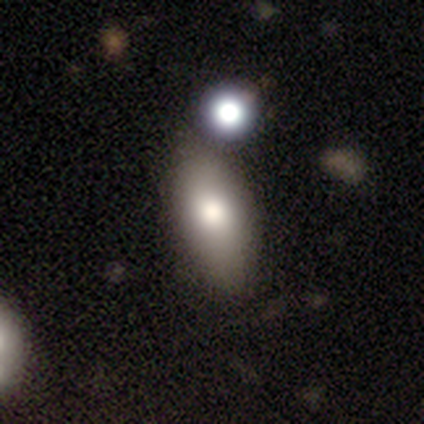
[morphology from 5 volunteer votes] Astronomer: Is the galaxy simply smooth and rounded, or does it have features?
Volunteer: smooth — 100%.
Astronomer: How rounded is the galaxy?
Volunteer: in between — 100%.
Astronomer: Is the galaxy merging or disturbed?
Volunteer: none — 40% (runner-up: minor disturbance, 20%).